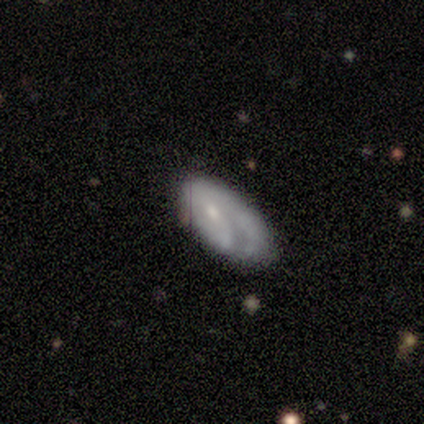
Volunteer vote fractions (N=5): Smooth or featured: featured or disk — 80% (smooth — 20%)
Edge-on disk: no — 100%
Bar: no — 75% (weak — 25%)
Spiral arms: yes — 75% (no — 25%)
Spiral winding: tight — 67% (loose — 33%)
Spiral arm count: 1 — 33% (tied with 2 — 33%; can't tell — 33%)
Bulge size: small — 100%
Merging: none — 80% (major disturbance — 20%)